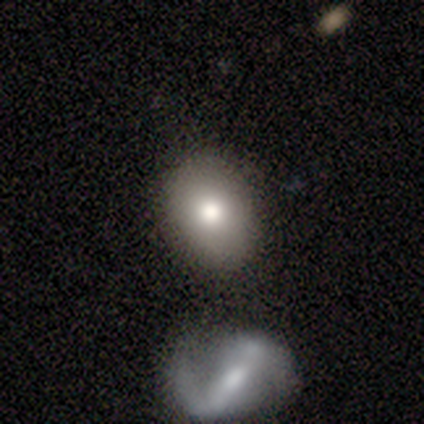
Volunteers were most divided on "smooth or featured" (2-way tie): smooth: 40%, featured or disk: 40%, star or artifact: 20%. More confident: how rounded — round (100%); merging — none (75%).